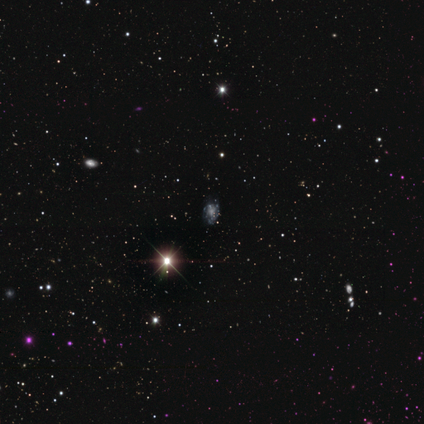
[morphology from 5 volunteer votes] Smooth or featured? featured or disk (60%)
Edge-on disk? no (100%)
Bar? no (67%)
Spiral arms? yes (67%)
Spiral winding? tight (100%)
Spiral arm count? can't tell (100%)
Bulge size? none (67%)
Merging? none (100%)